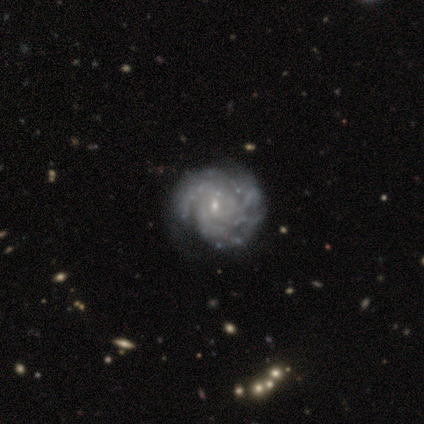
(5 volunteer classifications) This is clearly a featured or disk galaxy (100%). It is clearly not viewed edge-on (100%). Bar: likely weak (60%). Spiral arm pattern: clearly yes (100%). Spiral arm count: marginally 3 (40%, tied with can't tell). Spiral winding: clearly tight (80%). Central bulge: clearly small (80%). Merging: likely none (60%).